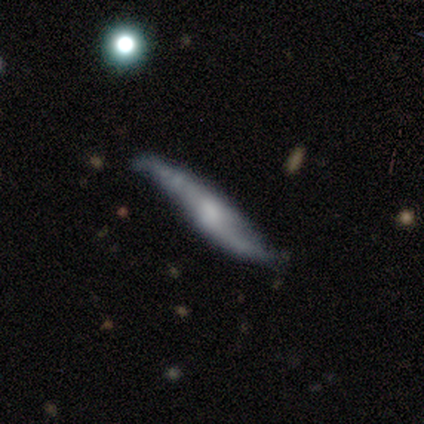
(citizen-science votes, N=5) smooth-or-featured: featured or disk: 60% | smooth: 40% | star or artifact: 0%
  disk-edge-on: yes: 67% | no: 33%
    edge-on-bulge: rounded: 100% | boxy: 0% | none: 0%
  merging: none: 40% (tied) | minor disturbance: 40% (tied) | merger: 20% | major disturbance: 0%